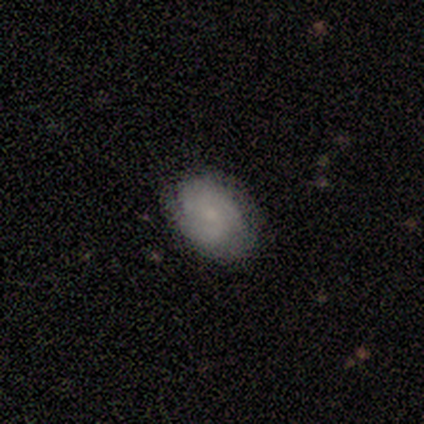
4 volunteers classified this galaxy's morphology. Smooth or featured? featured or disk (100%)
Edge-on disk? no (100%)
Bar? no (100%)
Spiral arms? yes (100%)
Spiral winding? tight (50%, tied with medium)
Spiral arm count? can't tell (75%)
Bulge size? small (50%, tied with none)
Merging? none (100%)